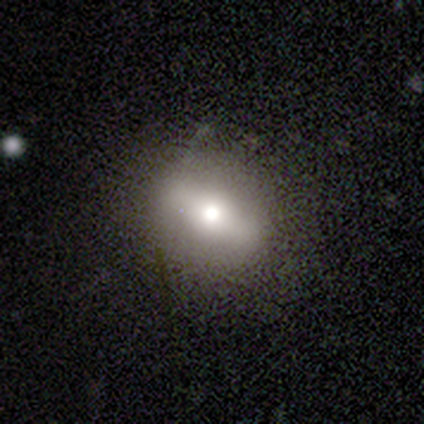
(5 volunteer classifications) Overall: smooth (80%). How rounded: in between (75%). Merging: none (75%).